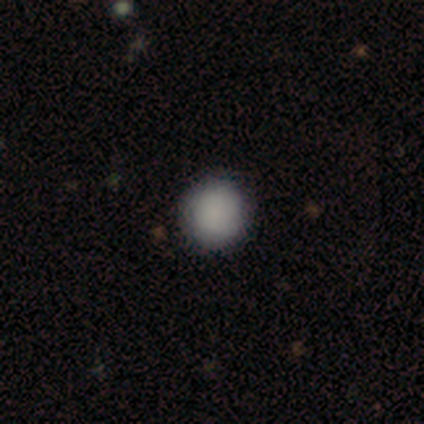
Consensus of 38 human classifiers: Smooth or featured: smooth — 87% (star or artifact — 8%)
How rounded: round — 94% (in between — 6%)
Merging: none — 97% (minor disturbance — 3%)